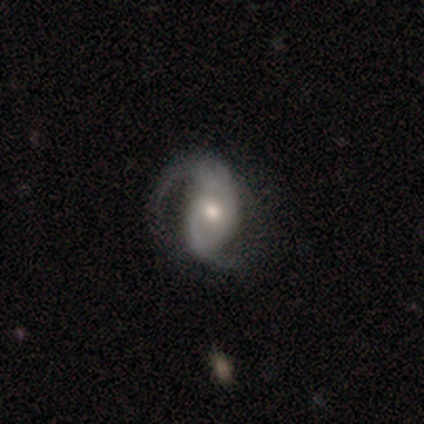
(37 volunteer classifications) Volunteers were most divided on "spiral winding": loose: 53%, medium: 38%, tight: 9%. More confident: edge-on disk — no (100%); spiral arms — yes (97%); smooth or featured — featured or disk (95%); spiral arm count — 2 (85%); bulge size — moderate (66%); bar — no (57%); merging — none (56%).